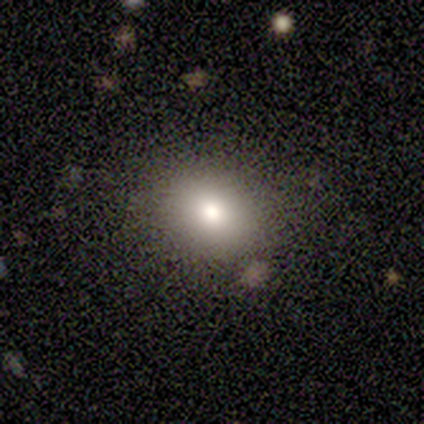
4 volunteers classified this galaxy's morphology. Smooth or featured: smooth — 100%
How rounded: round — 75% (in between — 25%)
Merging: none — 75% (minor disturbance — 25%)